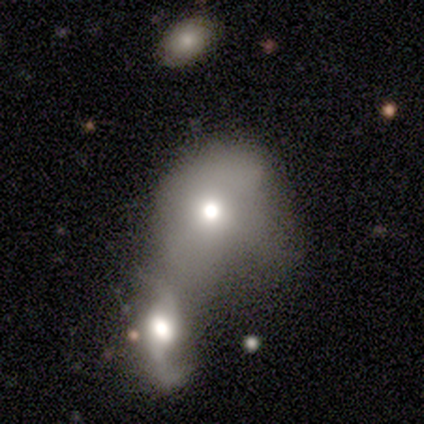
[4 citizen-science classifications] This is possibly a smooth galaxy (50%, tied with featured or disk). How rounded: clearly round (100%). Merging: clearly merger (100%).